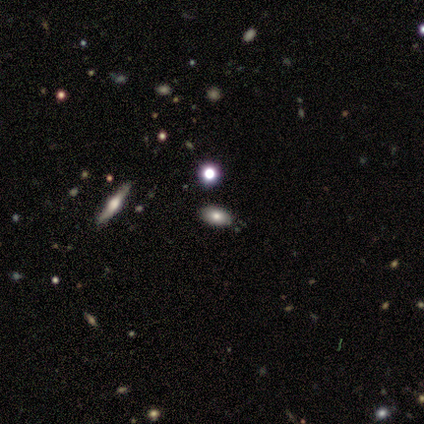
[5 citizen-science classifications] A smooth galaxy with no disk features (40%, tied with featured or disk) that is in between round and cigar-shaped (100%). Merging: none (100%).